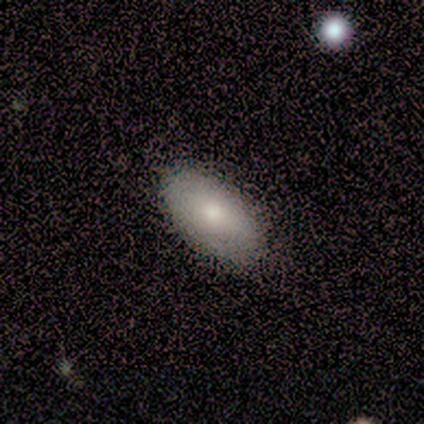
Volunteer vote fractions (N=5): A smooth galaxy with no disk features (100%) that is in between round and cigar-shaped (100%).

Vote fractions:
- Smooth or featured? smooth: 100% / featured or disk: 0% / star or artifact: 0%
- How rounded? in between: 100% / round: 0% / cigar-shaped: 0%
- Merging? none: 100% / minor disturbance: 0% / major disturbance: 0% / merger: 0%